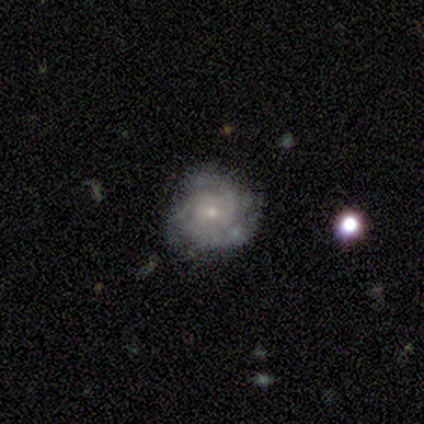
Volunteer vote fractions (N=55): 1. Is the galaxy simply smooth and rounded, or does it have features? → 67% featured or disk, 24% smooth, 9% star or artifact.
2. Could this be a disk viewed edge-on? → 92% no, 8% yes.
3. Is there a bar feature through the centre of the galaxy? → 79% no, 18% weak, 3% strong.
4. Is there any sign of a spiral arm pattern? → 94% yes, 6% no.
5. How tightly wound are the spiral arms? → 72% tight, 19% medium, 9% loose.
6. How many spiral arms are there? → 47% can't tell, 31% 3, 16% 2, 6% 4, 0% 1, 0% more than 4.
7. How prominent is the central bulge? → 76% small, 21% moderate, 3% none, 0% dominant, 0% large.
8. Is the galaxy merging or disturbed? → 72% none, 18% minor disturbance, 8% major disturbance, 2% merger.